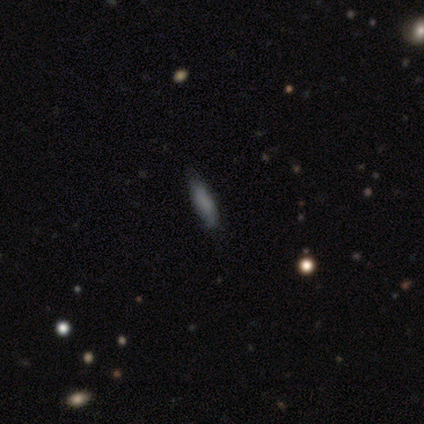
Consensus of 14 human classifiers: This appears to be a smooth galaxy with no disk features (71%) that is cigar-shaped (70%). Merging: none (71%).